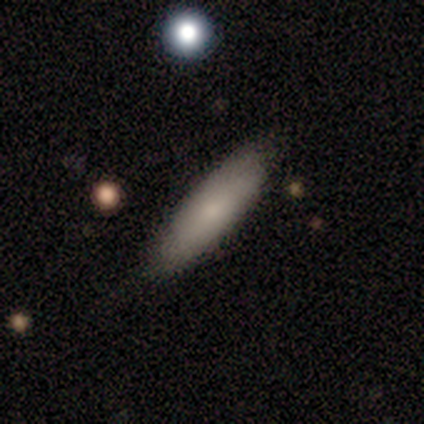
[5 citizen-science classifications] This appears to be a smooth galaxy with no disk features (100%) that is cigar-shaped (80%). Merging: none (100%).